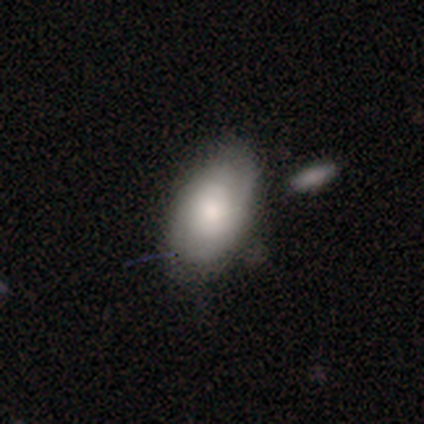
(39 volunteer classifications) Smooth or featured: smooth — 54% (featured or disk — 41%)
How rounded: in between — 100%
Merging: none — 70% (minor disturbance — 27%)